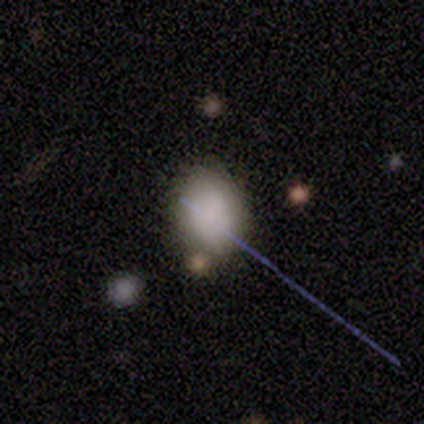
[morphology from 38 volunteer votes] smooth-or-featured: smooth: 76% | star or artifact: 13% | featured or disk: 11%
  how-rounded: in between: 66% | round: 34% | cigar-shaped: 0%
  merging: none: 67% | minor disturbance: 24% | major disturbance: 6% | merger: 3%